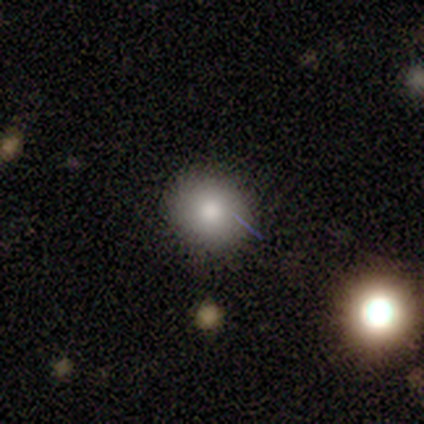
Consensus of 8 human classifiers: Smooth or featured: smooth — 100%
How rounded: round — 88% (in between — 12%)
Merging: none — 88% (minor disturbance — 12%)